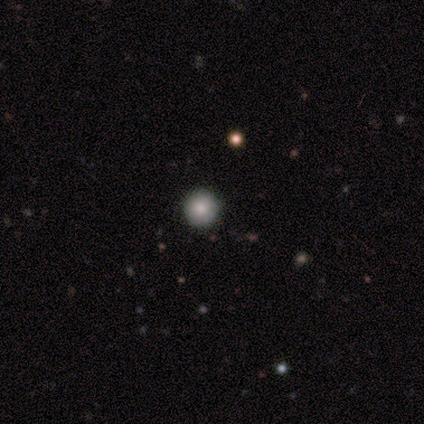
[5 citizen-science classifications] Morphology: type=smooth (100%); roundness=round (100%); merging=none (100%).